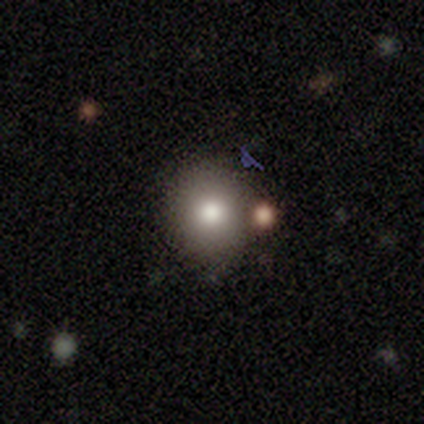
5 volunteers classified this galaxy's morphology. Overall: smooth (80%). How rounded: round (50%, tied with in between). Merging: none (75%).